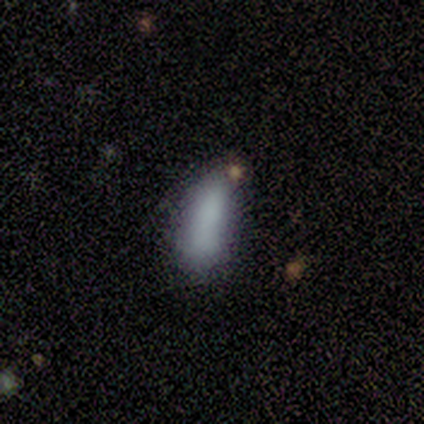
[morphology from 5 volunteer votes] Smooth or featured? 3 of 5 (60%) said smooth. How rounded? 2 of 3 (67%) said cigar-shaped. Merging? 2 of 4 (50%) said minor disturbance.